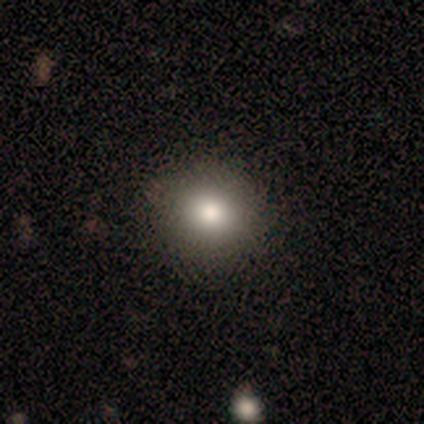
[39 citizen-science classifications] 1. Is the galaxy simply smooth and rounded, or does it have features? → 77% smooth, 15% star or artifact, 8% featured or disk.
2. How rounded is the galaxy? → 73% round, 27% in between, 0% cigar-shaped.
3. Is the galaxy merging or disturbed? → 48% none, 15% minor disturbance, 3% merger, 0% major disturbance.